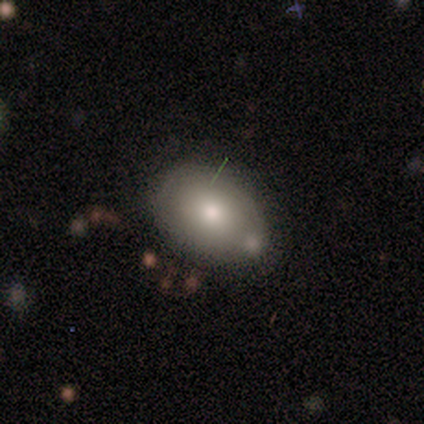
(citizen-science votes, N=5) Volunteers were most divided on "smooth or featured": smooth: 60%, featured or disk: 40%, star or artifact: 0%. More confident: how rounded — in between (100%); merging — minor disturbance (60%).